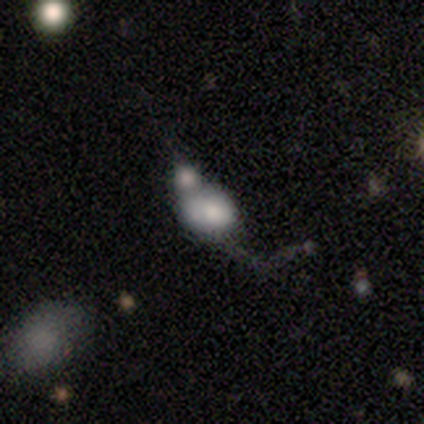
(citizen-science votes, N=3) Smooth or featured?
  - smooth: 67% *
  - featured or disk: 33%
  - star or artifact: 0%
How rounded?
  - in between: 100% *
  - round: 0%
  - cigar-shaped: 0%
Merging?
  - merger: 67% *
  - major disturbance: 33%
  - none: 0%
  - minor disturbance: 0%